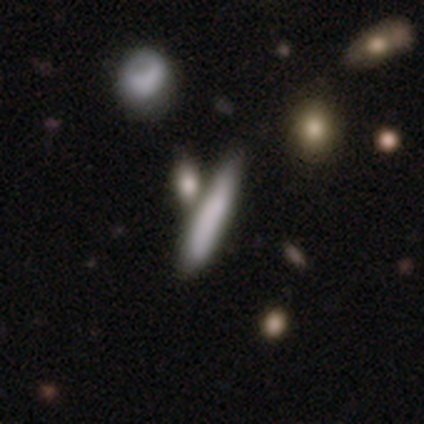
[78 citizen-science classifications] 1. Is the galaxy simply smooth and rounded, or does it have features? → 73% smooth, 21% featured or disk, 6% star or artifact.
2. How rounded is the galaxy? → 88% cigar-shaped, 12% in between, 0% round.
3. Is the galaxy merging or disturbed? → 36% merger, 23% none, 12% minor disturbance, 1% major disturbance.